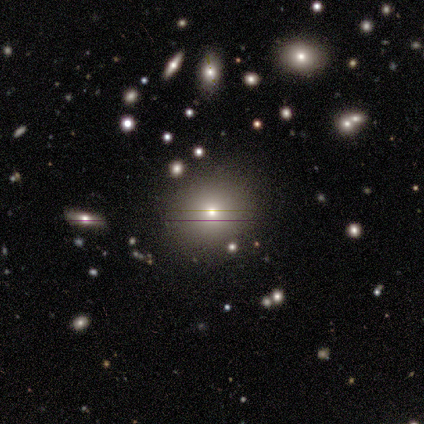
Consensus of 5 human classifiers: This is marginally a smooth galaxy (40%, tied with star or artifact). How rounded: clearly round (100%). Merging: clearly none (100%).